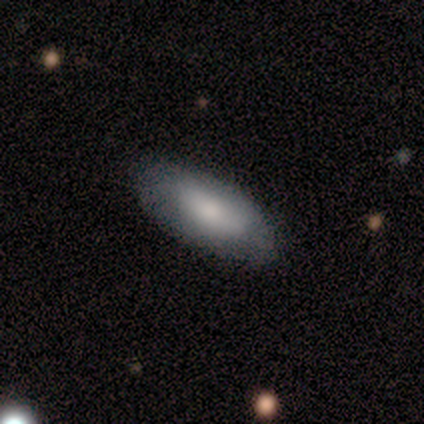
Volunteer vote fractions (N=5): Volunteers were most divided on "how rounded" (2-way tie): in between: 50%, cigar-shaped: 50%, round: 0%. More confident: smooth or featured — smooth (80%); merging — none (75%).